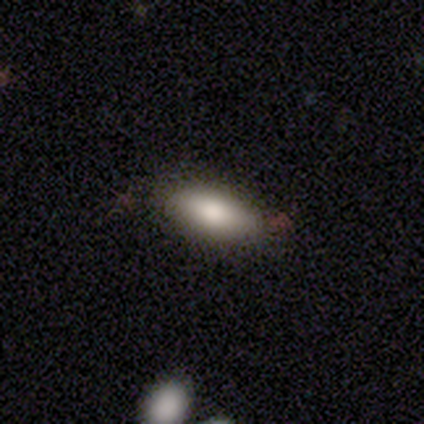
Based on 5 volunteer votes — Volunteers were most divided on "smooth or featured": smooth: 60%, featured or disk: 40%, star or artifact: 0%. More confident: how rounded — in between (100%); merging — none (80%).